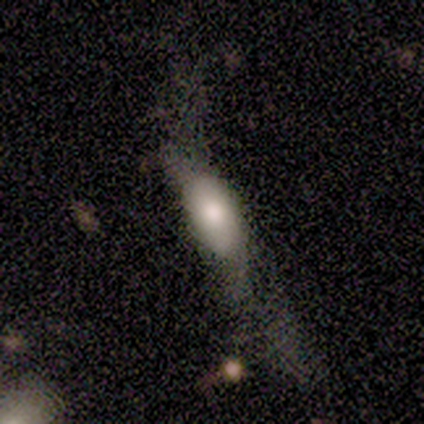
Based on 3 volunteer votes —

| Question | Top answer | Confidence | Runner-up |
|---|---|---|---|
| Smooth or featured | smooth | 100% | — |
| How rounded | in between | 100% | — |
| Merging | major disturbance | 67% | none (33%) |